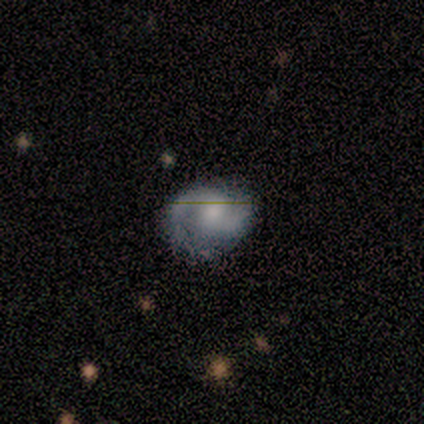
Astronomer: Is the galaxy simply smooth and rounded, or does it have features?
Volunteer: featured or disk — 100%.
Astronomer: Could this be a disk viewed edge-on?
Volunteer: no — 100%.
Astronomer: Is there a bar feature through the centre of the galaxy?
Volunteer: no — 75%.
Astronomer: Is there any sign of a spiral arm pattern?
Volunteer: yes — 100%.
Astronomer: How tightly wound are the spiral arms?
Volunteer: medium — 50%.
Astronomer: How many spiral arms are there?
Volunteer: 2 — 75%.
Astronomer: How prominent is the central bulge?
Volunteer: large — 50%, tied with small at 50%.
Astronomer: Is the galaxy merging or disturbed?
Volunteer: none — 100%.